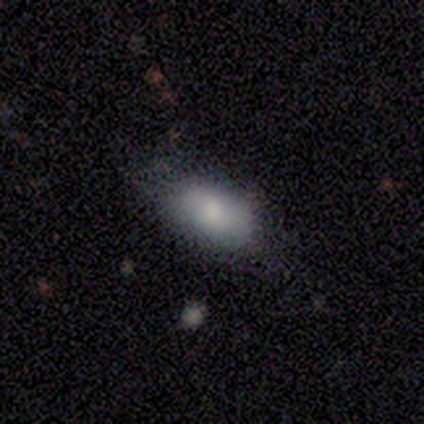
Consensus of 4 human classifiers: Smooth or featured? 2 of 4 (50%) said smooth. How rounded? 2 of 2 (100%) said in between. Merging? 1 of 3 (33%, tied with minor disturbance and major disturbance) said none.